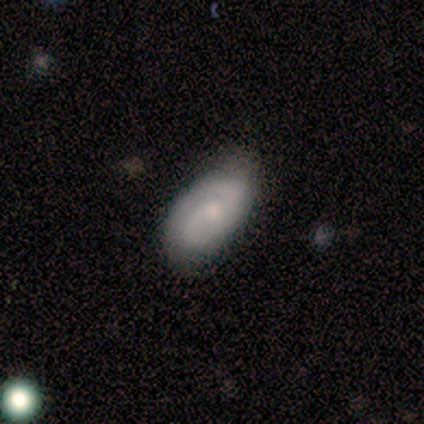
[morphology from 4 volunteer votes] Volunteers were most divided on "bar": weak: 67%, no: 33%, strong: 0%. More confident: edge-on disk — no (100%); spiral arms — yes (100%); spiral arm count — 2 (100%); bulge size — moderate (100%); smooth or featured — featured or disk (75%); merging — none (75%); spiral winding — tight (67%).